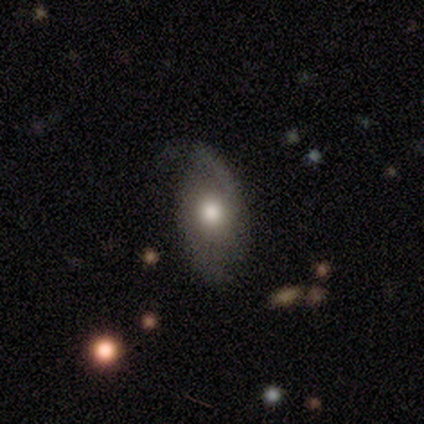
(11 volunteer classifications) smooth-or-featured: smooth: 64% | featured or disk: 36% | star or artifact: 0%
  how-rounded: in between: 71% | round: 14% | cigar-shaped: 14%
  merging: none: 55% | minor disturbance: 36% | major disturbance: 9% | merger: 0%